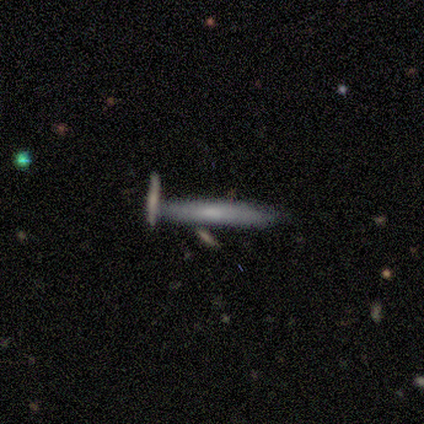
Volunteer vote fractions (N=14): smooth 57%, featured or disk 43%, star or artifact 0%. Down the decision tree: how rounded — cigar-shaped (100%); merging — none (79%).